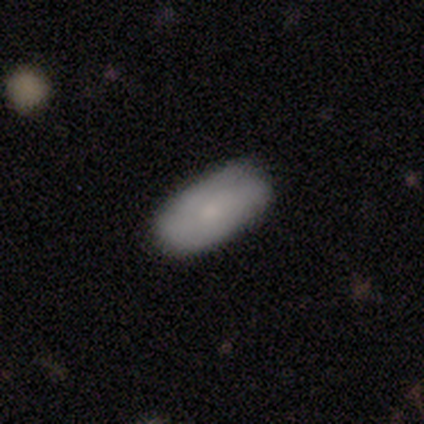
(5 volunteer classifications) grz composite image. It shows a smooth galaxy with no disk features (60%) that is in between round and cigar-shaped (100%). Merging: none (80%).